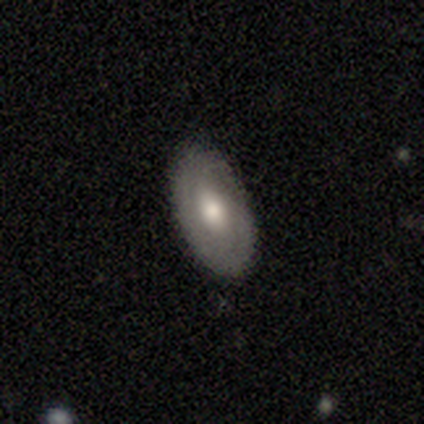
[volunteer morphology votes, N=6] Q: Smooth or featured?
A: smooth (50%); tied with: featured or disk (50%)
Q: How rounded?
A: in between (67%); runner-up: round (33%)
Q: Merging?
A: none (83%); runner-up: minor disturbance (17%)